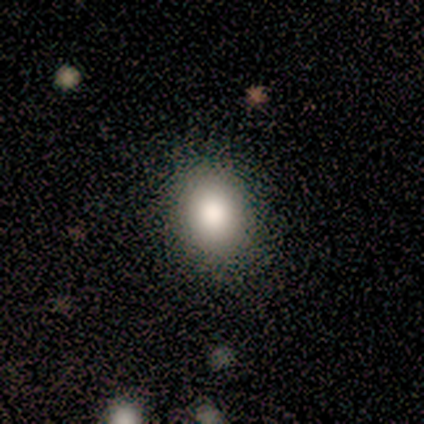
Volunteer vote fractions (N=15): Smooth or featured?
  - smooth: 100% *
  - featured or disk: 0%
  - star or artifact: 0%
How rounded?
  - in between: 60% *
  - round: 40%
  - cigar-shaped: 0%
Merging?
  - none: 93% *
  - major disturbance: 7%
  - minor disturbance: 0%
  - merger: 0%